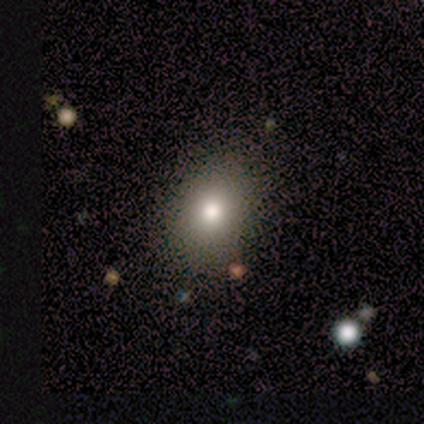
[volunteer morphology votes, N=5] A smooth galaxy with no disk features (80%) that is in between round and cigar-shaped (100%). Merging: none (100%).